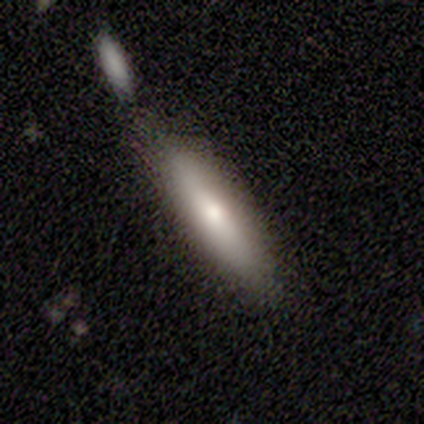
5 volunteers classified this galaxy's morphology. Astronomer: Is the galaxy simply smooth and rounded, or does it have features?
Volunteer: smooth — 60%.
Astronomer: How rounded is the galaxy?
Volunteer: cigar-shaped — 67%.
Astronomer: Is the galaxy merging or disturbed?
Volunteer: none — 75%.